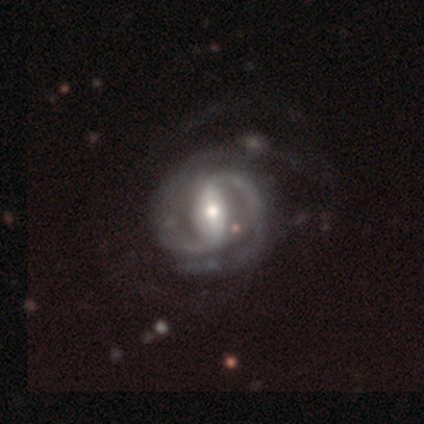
smooth_or_featured: featured or disk (p=0.95) [alt: smooth p=0.03]
disk_edge_on: no (p=0.97) [alt: yes p=0.03]
bar: strong (p=0.62) [alt: weak p=0.32]
has_spiral_arms: yes (p=1.00)
spiral_winding: medium (p=0.54) [alt: tight p=0.41]
spiral_arm_count: 2 (p=0.76) [alt: can't tell p=0.16]
bulge_size: moderate (p=0.76) [alt: small p=0.16]
merging: none (p=0.23) [alt: major disturbance p=0.18]